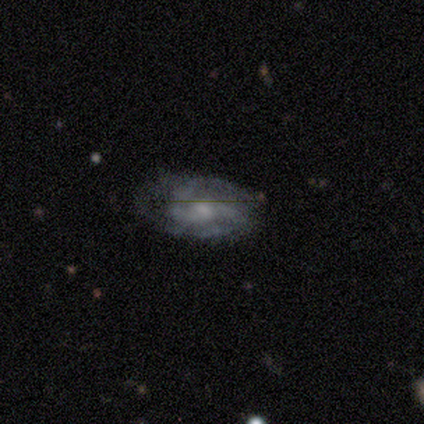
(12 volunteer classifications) featured or disk 100%, smooth 0%, star or artifact 0%. Down the decision tree: edge-on disk — no (100%); bar — no (50%); spiral arms — yes (100%); spiral arm count — 2 (75%); spiral winding — medium (58%); bulge size — small (50%); merging — none (58%).